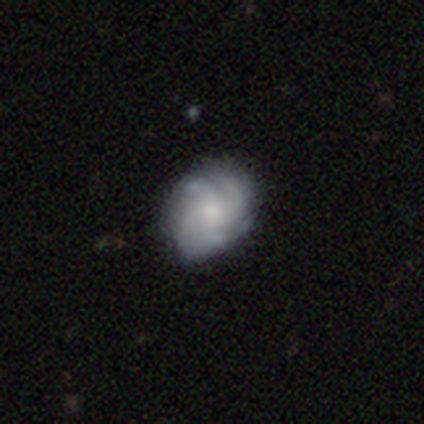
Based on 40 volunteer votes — Overall: featured or disk (72%). Edge-on disk: no (97%). Bar: no (75%). Spiral arms: yes (89%). Spiral arm count: 4 (44%; can't tell 40%). Spiral winding: tight (40%, tied with medium). Bulge size: moderate (36%; small 32%). Merging: none (63%; minor disturbance 24%).